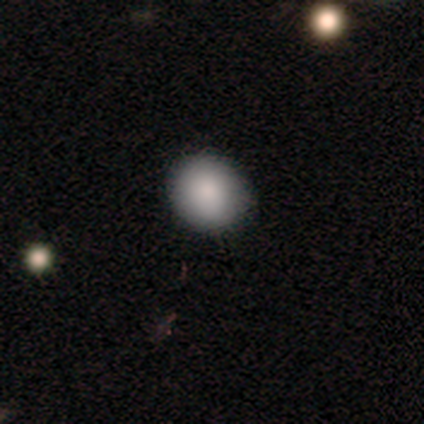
Q: Smooth or featured?
A: smooth (100%)
Q: How rounded?
A: round (100%)
Q: Merging?
A: none (100%)